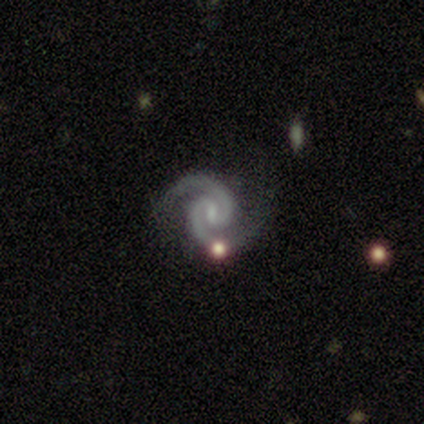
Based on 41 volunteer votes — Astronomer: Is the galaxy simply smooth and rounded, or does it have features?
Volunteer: featured or disk — 90%.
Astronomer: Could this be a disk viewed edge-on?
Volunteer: no — 100%.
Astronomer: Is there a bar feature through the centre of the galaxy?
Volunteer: weak — 65%.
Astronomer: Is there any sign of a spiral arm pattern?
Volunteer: yes — 97%.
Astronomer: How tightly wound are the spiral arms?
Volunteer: tight — 56% (runner-up: medium, 42%).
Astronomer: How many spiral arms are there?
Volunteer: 2 — 100%.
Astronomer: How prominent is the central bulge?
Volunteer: small — 57%.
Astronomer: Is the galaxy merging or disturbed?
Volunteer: none — 67%.